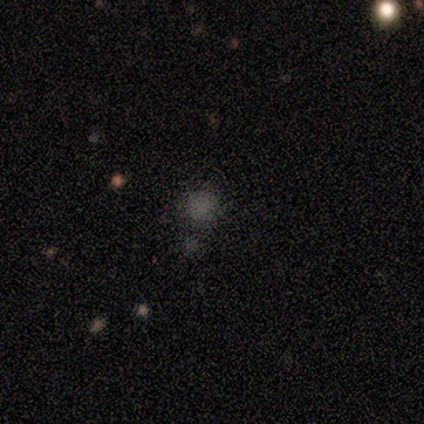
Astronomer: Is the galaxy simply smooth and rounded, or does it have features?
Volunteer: star or artifact — 75%.